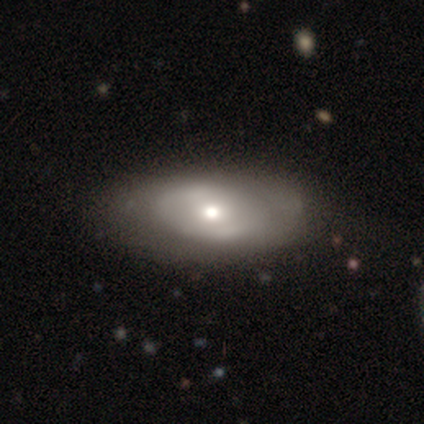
Smooth or featured? 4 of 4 (100%) said featured or disk. Edge-on disk? 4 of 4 (100%) said no. Bar? 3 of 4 (75%) said no. Spiral arms? 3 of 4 (75%) said no. Bulge size? 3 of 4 (75%) said moderate. Merging? 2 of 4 (50%) said none.